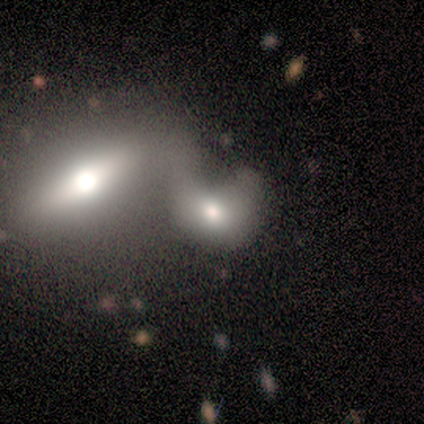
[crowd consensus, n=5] Smooth or featured? 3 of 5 (60%) said featured or disk. Edge-on disk? 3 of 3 (100%) said no. Bar? 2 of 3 (67%) said weak. Spiral arms? 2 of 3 (67%) said no. Bulge size? 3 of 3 (100%) said moderate. Merging? 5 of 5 (100%) said merger.